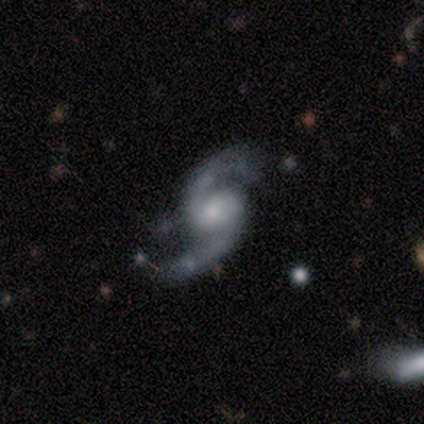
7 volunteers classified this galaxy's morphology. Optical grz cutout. It shows a featured or disk galaxy (100%) with no bar (57%), 2 (100%) loose (86%) spiral arms (100%) and a moderate central bulge (57%). Merging: none (71%).